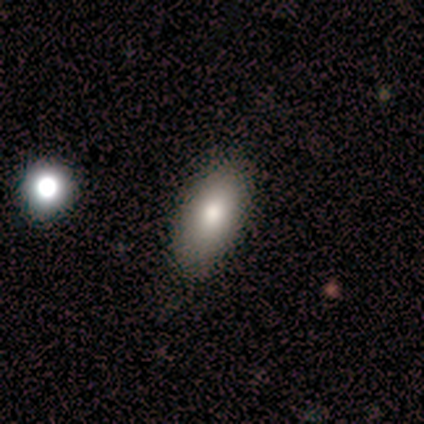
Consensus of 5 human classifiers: This appears to be a smooth galaxy with no disk features (100%) that is in between round and cigar-shaped (80%). Merging: none (100%).